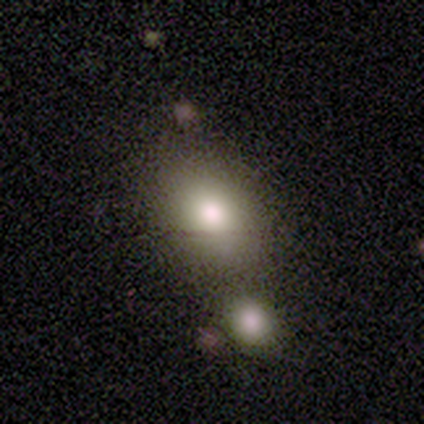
Smooth or featured? smooth (84%)
How rounded? in between (68%)
Merging? none (69%)